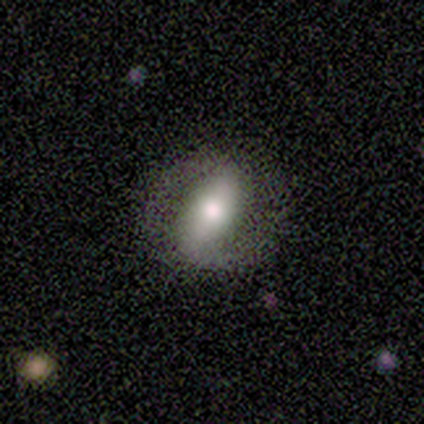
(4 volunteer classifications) Smooth or featured: featured or disk — 75% (smooth — 25%)
Edge-on disk: no — 100%
Bar: strong — 67% (no — 33%)
Spiral arms: yes — 100%
Spiral winding: medium — 67% (loose — 33%)
Spiral arm count: 2 — 67% (can't tell — 33%)
Bulge size: moderate — 67% (large — 33%)
Merging: none — 75% (minor disturbance — 25%)